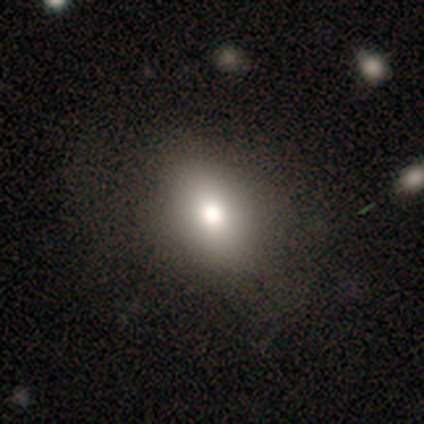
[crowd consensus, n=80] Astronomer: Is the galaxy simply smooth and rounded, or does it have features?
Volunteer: smooth — 89%.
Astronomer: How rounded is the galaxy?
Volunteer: in between — 68%.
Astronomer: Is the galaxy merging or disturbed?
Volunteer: none — 41%.